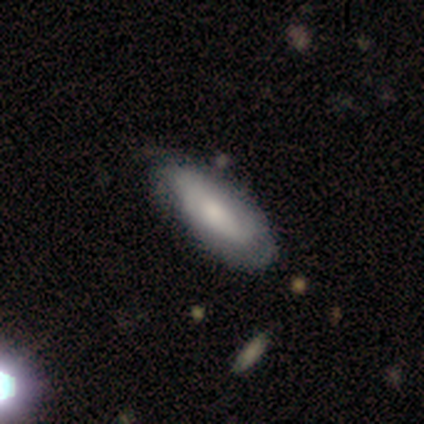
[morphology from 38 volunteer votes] This is possibly a smooth galaxy (50%). How rounded: likely in between (68%). Merging: possibly none (54%).